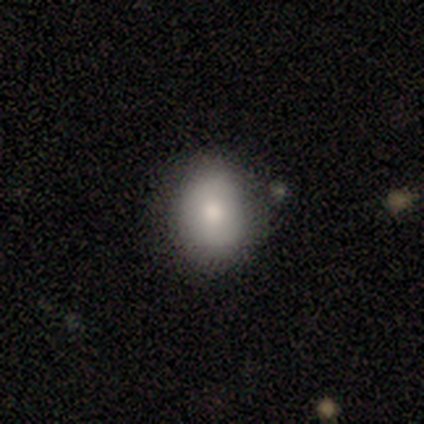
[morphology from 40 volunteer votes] Volunteers were most divided on "how rounded": in between: 70%, round: 30%, cigar-shaped: 0%. More confident: smooth or featured — smooth (82%); merging — none (81%).